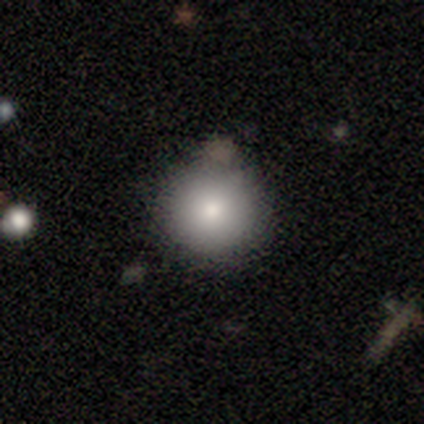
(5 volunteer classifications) This appears to be a smooth galaxy with no disk features (60%) that is round (100%). Merging: none (75%).